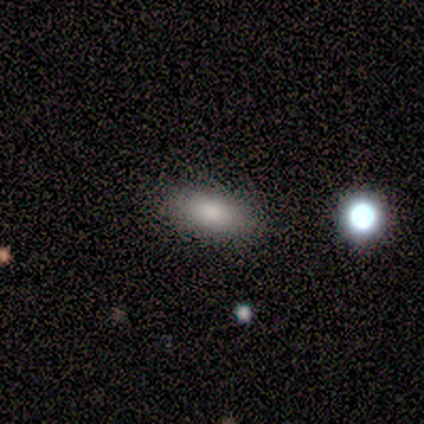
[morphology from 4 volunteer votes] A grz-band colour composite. It shows a smooth galaxy with no disk features (100%) that is in between round and cigar-shaped (75%). Merging: none (100%).